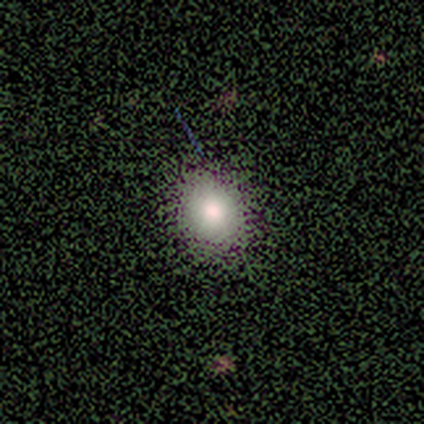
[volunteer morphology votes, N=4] smooth-or-featured: smooth: 50% | featured or disk: 25% | star or artifact: 25%
  how-rounded: round: 100% | in between: 0% | cigar-shaped: 0%
  merging: none: 67% | minor disturbance: 33% | major disturbance: 0% | merger: 0%